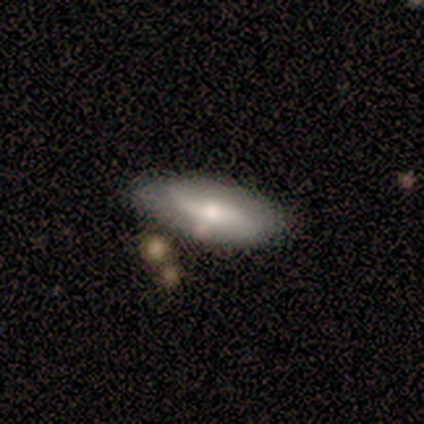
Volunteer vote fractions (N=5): Smooth or featured? 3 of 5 (60%) said featured or disk. Edge-on disk? 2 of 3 (67%) said no. Bar? 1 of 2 (50%, tied with no) said strong. Spiral arms? 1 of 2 (50%, tied with no) said yes. Spiral winding? 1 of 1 (100%) said loose. Spiral arm count? 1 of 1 (100%) said 2. Bulge size? 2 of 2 (100%) said moderate. Merging? 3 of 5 (60%) said none.